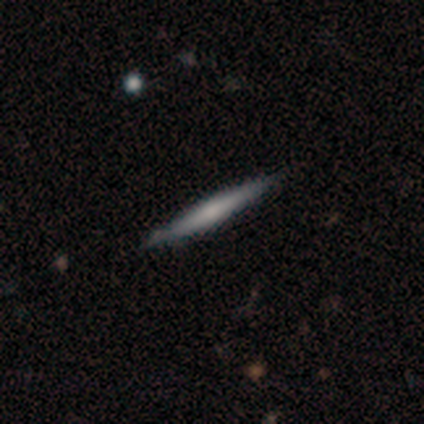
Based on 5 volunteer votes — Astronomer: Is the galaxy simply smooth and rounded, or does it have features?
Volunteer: featured or disk — 60%.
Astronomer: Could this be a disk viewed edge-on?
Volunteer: yes — 100%.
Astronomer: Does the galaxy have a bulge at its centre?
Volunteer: rounded — 67%.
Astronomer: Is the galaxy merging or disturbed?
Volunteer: none — 100%.